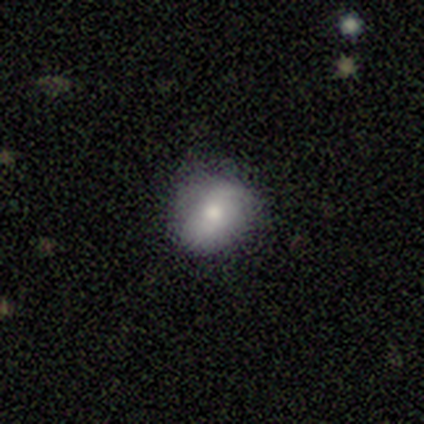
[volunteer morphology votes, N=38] Overall: smooth (76%). How rounded: round (62%; in between 38%). Merging: none (81%).